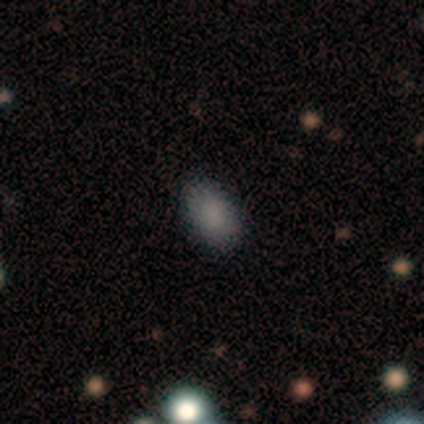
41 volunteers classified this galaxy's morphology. type=smooth (95%); roundness=in between (95%); merging=none (90%).